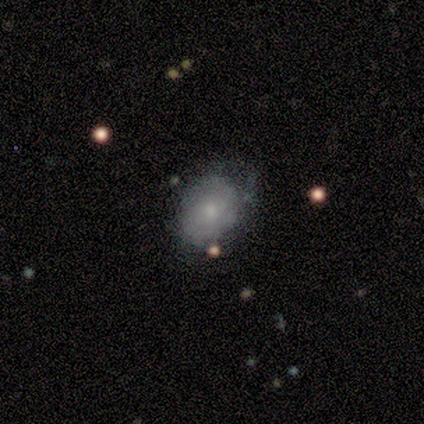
smooth 100%, featured or disk 0%, star or artifact 0%. Down the decision tree: how rounded — in between (80%); merging — none (60%).